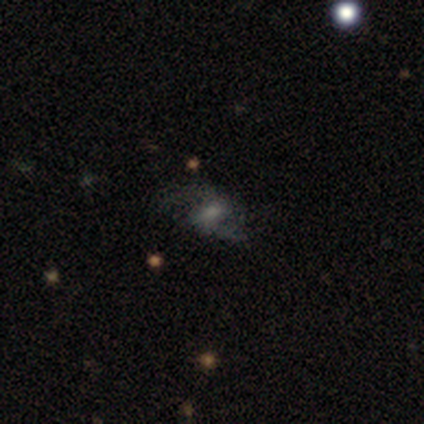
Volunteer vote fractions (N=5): A featured or disk galaxy (60%) with a weak bar (67%), 2 (100%) medium (67%) spiral arms (100%) and a moderate central bulge (33%, tied with small and none). Merging: none (75%).